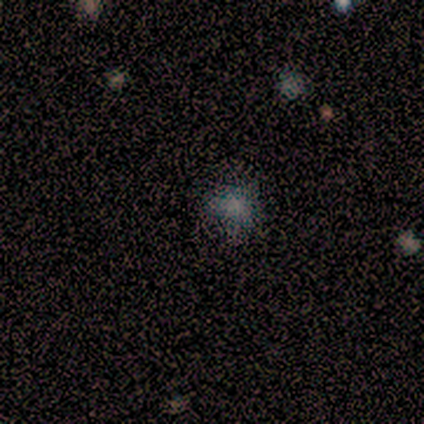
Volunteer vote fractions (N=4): A smooth galaxy with no disk features (75%) that is round (67%).

Vote fractions:
- Smooth or featured? smooth: 75% / star or artifact: 25% / featured or disk: 0%
- How rounded? round: 67% / in between: 33% / cigar-shaped: 0%
- Merging? none: 67% / major disturbance: 33% / minor disturbance: 0% / merger: 0%